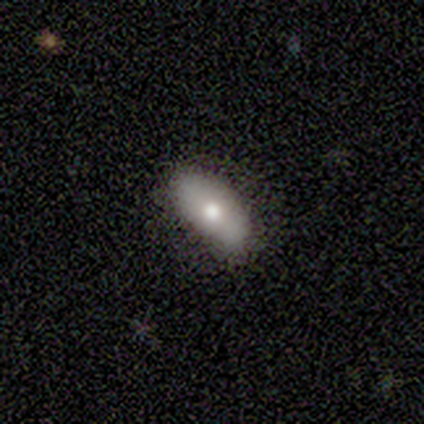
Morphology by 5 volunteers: Smooth or featured? 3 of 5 (60%) said featured or disk. Edge-on disk? 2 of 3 (67%) said no. Bar? 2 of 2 (100%) said no. Spiral arms? 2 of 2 (100%) said no. Bulge size? 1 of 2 (50%, tied with small) said moderate. Merging? 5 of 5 (100%) said none.